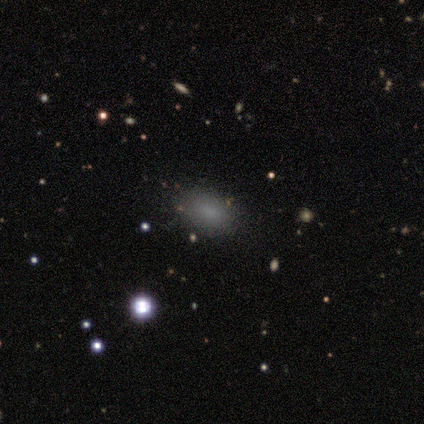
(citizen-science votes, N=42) Smooth or featured? smooth (71%)
How rounded? in between (90%)
Merging? none (100%)